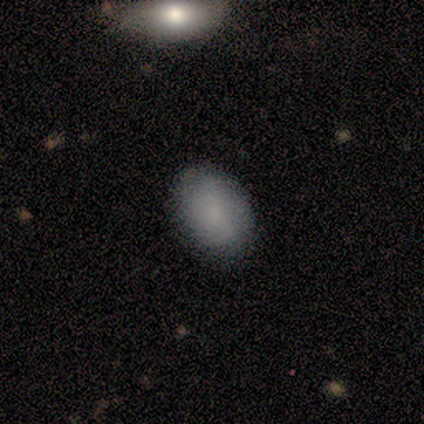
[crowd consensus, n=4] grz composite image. It shows a smooth galaxy with no disk features (50%, tied with featured or disk) that is in between round and cigar-shaped (100%). Merging: none (75%).